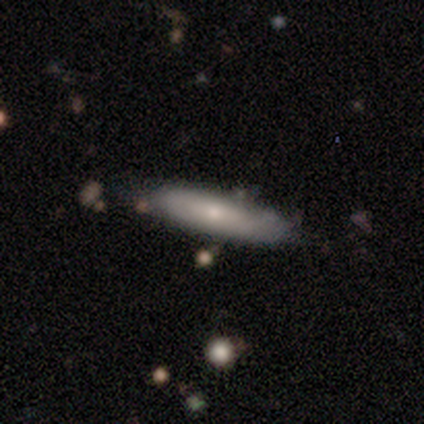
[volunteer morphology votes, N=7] Smooth or featured? 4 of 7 (57%) said smooth. How rounded? 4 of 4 (100%) said cigar-shaped. Merging? 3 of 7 (43%, tied with minor disturbance) said none.